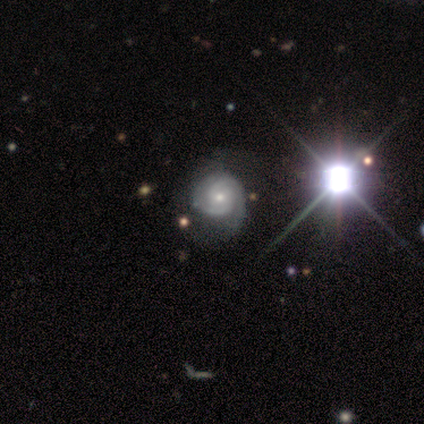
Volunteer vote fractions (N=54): A featured or disk galaxy (80%) with no bar (79%), 2 (64%) tight (56%) spiral arms (93%) and a moderate central bulge (50%). Merging: none (54%).